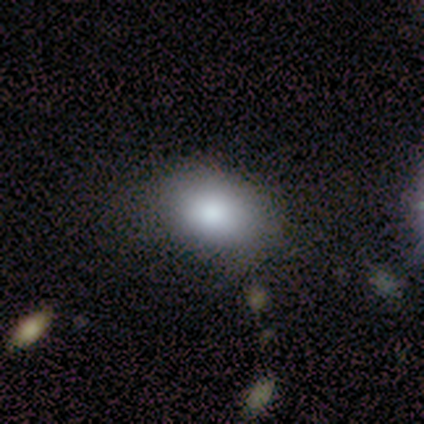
smooth_or_featured: smooth (p=0.60) [alt: featured or disk p=0.20]
how_rounded: in between (p=1.00)
merging: none (p=0.50) [alt: minor disturbance p=0.25]